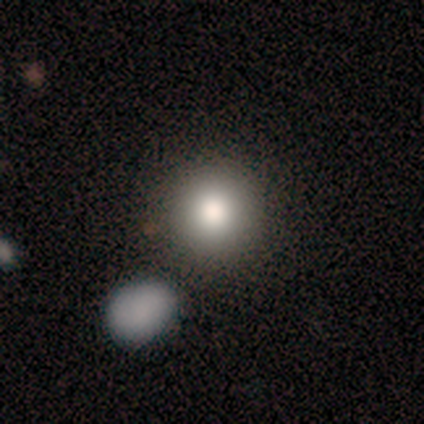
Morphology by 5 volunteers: This appears to be a smooth galaxy with no disk features (80%) that is round (100%). Merging: none (100%).